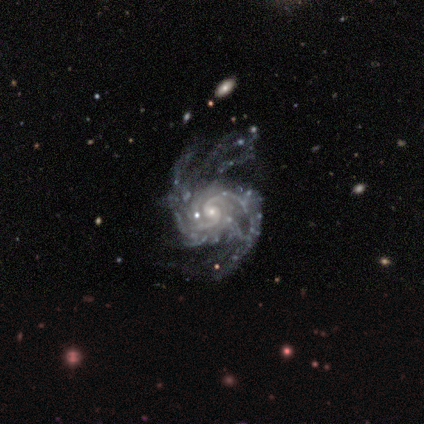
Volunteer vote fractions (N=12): This is clearly a featured or disk galaxy (92%). It is clearly not viewed edge-on (100%). Bar: clearly no (82%). Spiral arm pattern: clearly yes (100%). Spiral arm count: likely 2 (64%). Spiral winding: possibly tight (55%). Central bulge: clearly small (91%). Merging: clearly none (83%).